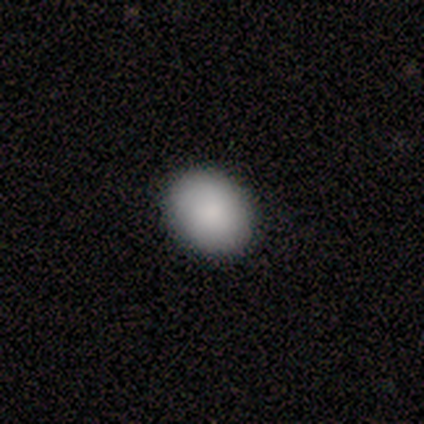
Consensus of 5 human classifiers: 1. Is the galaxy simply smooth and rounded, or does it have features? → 100% smooth, 0% featured or disk, 0% star or artifact.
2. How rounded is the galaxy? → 80% in between, 20% round, 0% cigar-shaped.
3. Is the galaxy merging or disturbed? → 100% none, 0% minor disturbance, 0% major disturbance, 0% merger.